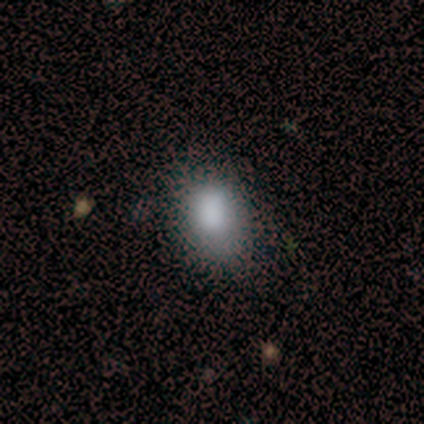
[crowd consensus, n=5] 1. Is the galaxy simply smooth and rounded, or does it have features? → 60% smooth, 20% featured or disk, 20% star or artifact.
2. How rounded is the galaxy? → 100% in between, 0% round, 0% cigar-shaped.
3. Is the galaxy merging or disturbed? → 50% none (tied), 50% minor disturbance (tied), 0% major disturbance, 0% merger.